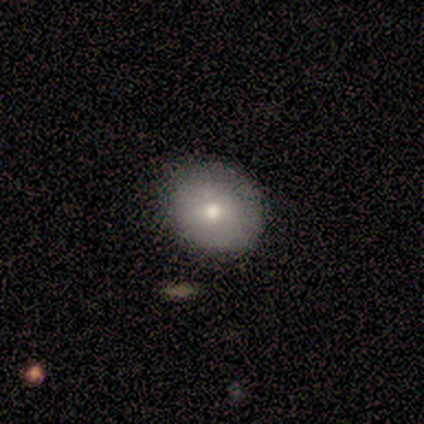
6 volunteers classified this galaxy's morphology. Volunteers were most divided on "how rounded" (2-way tie): round: 50%, in between: 50%, cigar-shaped: 0%. More confident: smooth or featured — smooth (67%); merging — minor disturbance (50%).